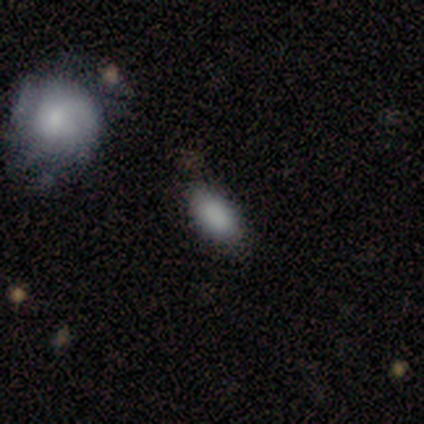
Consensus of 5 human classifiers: Smooth or featured? 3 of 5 (60%) said smooth. How rounded? 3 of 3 (100%) said in between. Merging? 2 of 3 (67%) said none.